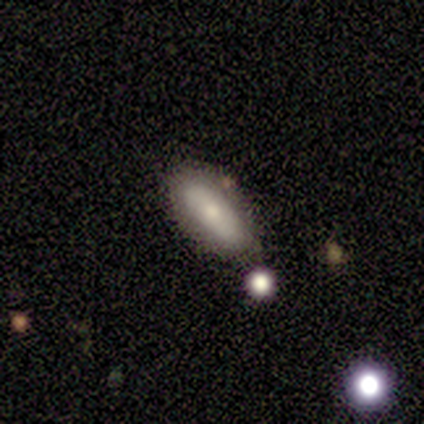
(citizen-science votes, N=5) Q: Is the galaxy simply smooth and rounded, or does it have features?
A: smooth — 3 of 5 (60%).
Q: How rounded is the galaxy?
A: in between — 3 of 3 (100%).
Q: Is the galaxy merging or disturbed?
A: none — 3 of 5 (60%).